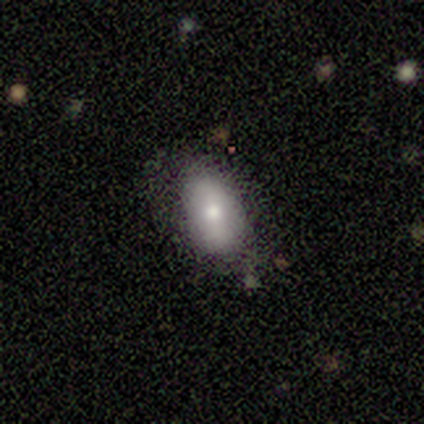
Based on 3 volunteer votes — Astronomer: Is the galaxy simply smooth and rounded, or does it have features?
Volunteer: featured or disk — 67%.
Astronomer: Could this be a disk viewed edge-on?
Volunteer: no — 100%.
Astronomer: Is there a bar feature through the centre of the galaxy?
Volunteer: weak — 50%, tied with no at 50%.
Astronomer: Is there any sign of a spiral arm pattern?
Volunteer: no — 100%.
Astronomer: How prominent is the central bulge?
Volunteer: small — 100%.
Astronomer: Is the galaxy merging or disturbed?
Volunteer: none — 67%.